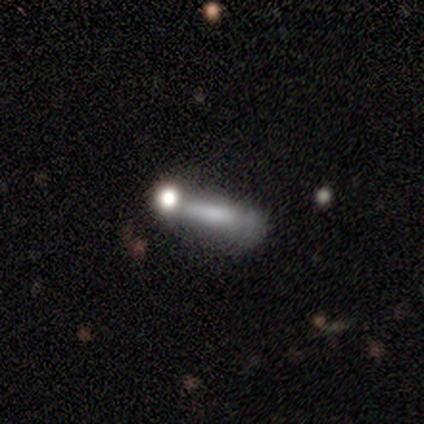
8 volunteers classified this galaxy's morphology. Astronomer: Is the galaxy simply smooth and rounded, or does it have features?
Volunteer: smooth — 75%.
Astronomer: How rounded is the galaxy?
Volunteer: in between — 50%, tied with cigar-shaped at 50%.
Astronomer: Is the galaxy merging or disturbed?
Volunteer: minor disturbance — 57%.